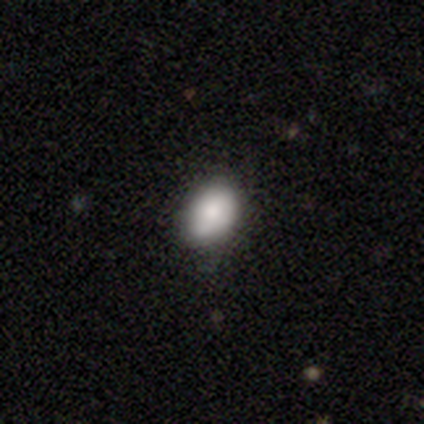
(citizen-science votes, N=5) Smooth or featured?
  - smooth: 80% *
  - featured or disk: 20%
  - star or artifact: 0%
How rounded?
  - in between: 100% *
  - round: 0%
  - cigar-shaped: 0%
Merging?
  - none: 80% *
  - major disturbance: 20%
  - minor disturbance: 0%
  - merger: 0%